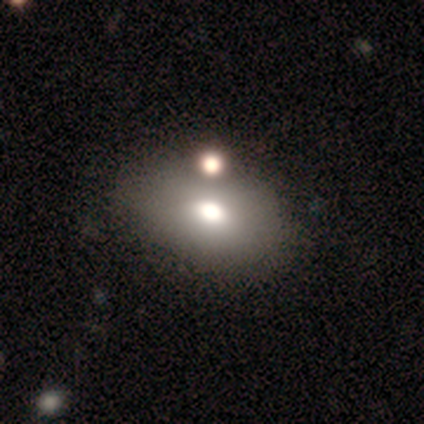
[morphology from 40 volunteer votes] Overall: smooth (78%). How rounded: in between (84%). Merging: none (38%; merger 21%).